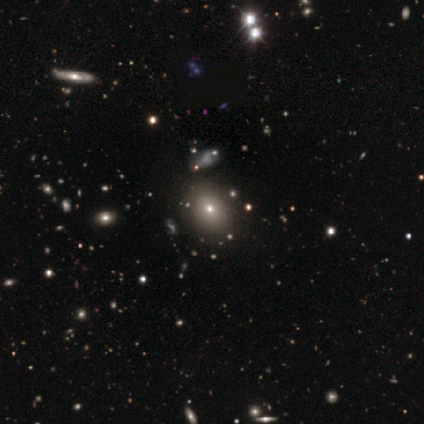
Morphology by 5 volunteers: Overall: smooth (40%, tied with star or artifact). How rounded: round (50%, tied with in between). Merging: minor disturbance (67%; none 33%).